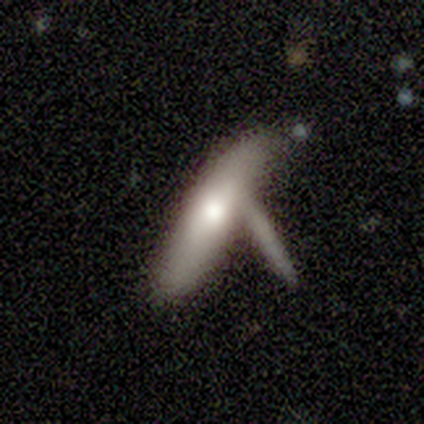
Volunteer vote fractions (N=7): Overall: smooth (100%). How rounded: cigar-shaped (71%). Merging: merger (43%; none 29%).